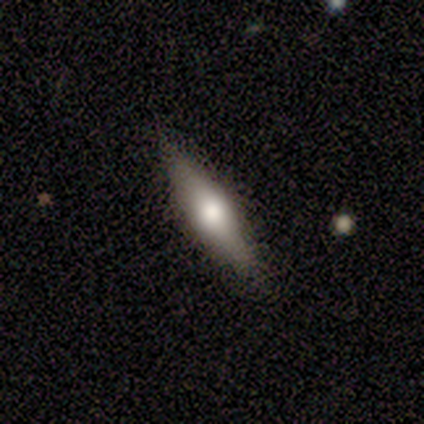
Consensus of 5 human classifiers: A featured or disk galaxy (100%) viewed edge-on (80%) with a rounded central bulge (100%).

Vote fractions:
- Smooth or featured? featured or disk: 100% / smooth: 0% / star or artifact: 0%
- Edge-on disk? yes: 80% / no: 20%
- Edge-on bulge? rounded: 100% / boxy: 0% / none: 0%
- Merging? none: 80% / minor disturbance: 20% / major disturbance: 0% / merger: 0%